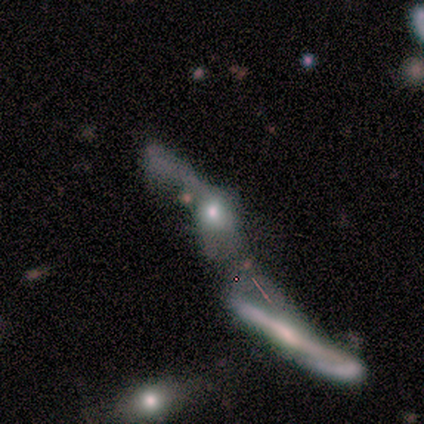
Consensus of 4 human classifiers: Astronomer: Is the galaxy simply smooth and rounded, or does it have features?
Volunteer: featured or disk — 50%.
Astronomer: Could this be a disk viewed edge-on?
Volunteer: yes — 100%.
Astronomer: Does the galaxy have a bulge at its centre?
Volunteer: rounded — 100%.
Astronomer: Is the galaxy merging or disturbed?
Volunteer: merger — 100%.